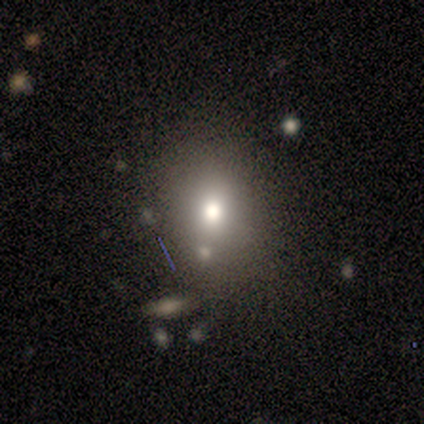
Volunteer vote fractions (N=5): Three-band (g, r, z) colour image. It shows a smooth galaxy with no disk features (40%, tied with star or artifact) that is round (100%). Merging: none (67%).